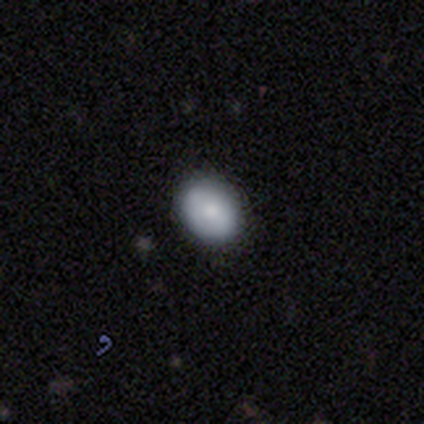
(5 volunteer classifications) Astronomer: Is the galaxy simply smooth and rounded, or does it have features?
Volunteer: smooth — 60% (runner-up: featured or disk, 40%).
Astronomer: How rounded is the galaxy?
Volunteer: round — 67%.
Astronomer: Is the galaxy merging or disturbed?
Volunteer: none — 80%.